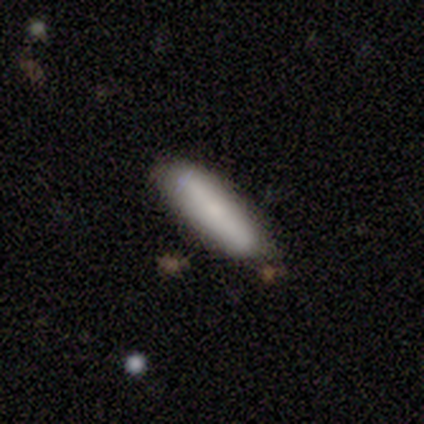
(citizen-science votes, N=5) A featured or disk galaxy (60%) viewed edge-on (100%) with a rounded central bulge (100%).

Vote fractions:
- Smooth or featured? featured or disk: 60% / smooth: 40% / star or artifact: 0%
- Edge-on disk? yes: 100% / no: 0%
- Edge-on bulge? rounded: 100% / boxy: 0% / none: 0%
- Merging? none: 80% / minor disturbance: 20% / major disturbance: 0% / merger: 0%